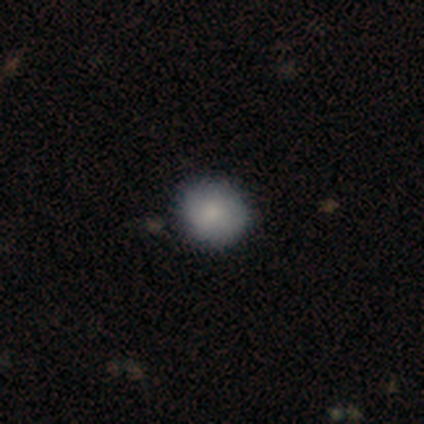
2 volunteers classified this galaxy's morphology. Smooth or featured?
  - smooth: 100% *
  - featured or disk: 0%
  - star or artifact: 0%
How rounded?
  - round: 100% *
  - in between: 0%
  - cigar-shaped: 0%
Merging?
  - none: 100% *
  - minor disturbance: 0%
  - major disturbance: 0%
  - merger: 0%